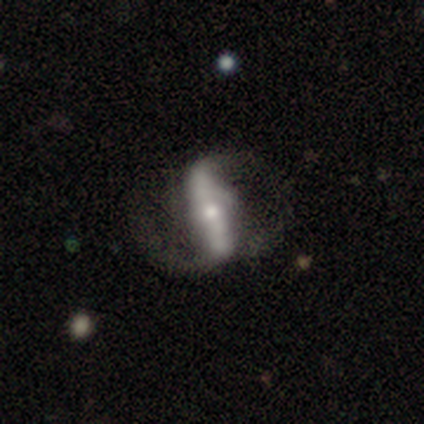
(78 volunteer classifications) Smooth or featured? featured or disk (76%)
Edge-on disk? no (88%)
Bar? strong (73%)
Spiral arms? yes (83%)
Spiral winding? loose (77%)
Spiral arm count? 2 (88%)
Bulge size? moderate (50%)
Merging? none (28%)